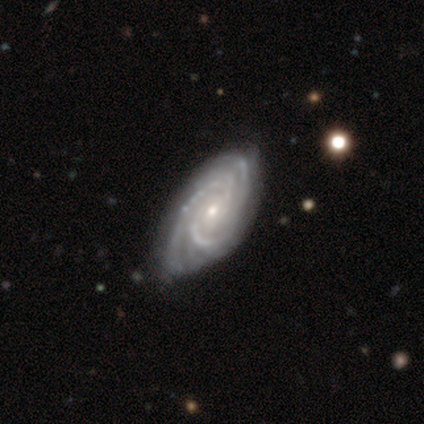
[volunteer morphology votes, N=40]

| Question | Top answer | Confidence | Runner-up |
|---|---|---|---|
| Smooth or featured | featured or disk | 98% | star or artifact (2%) |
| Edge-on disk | no | 100% | — |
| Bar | no | 79% | weak (18%) |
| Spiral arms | yes | 100% | — |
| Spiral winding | tight | 56% | medium (38%) |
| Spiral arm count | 3 | 28% | can't tell (26%) |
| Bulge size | small | 62% | moderate (36%) |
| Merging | none | 44% | minor disturbance (15%) |